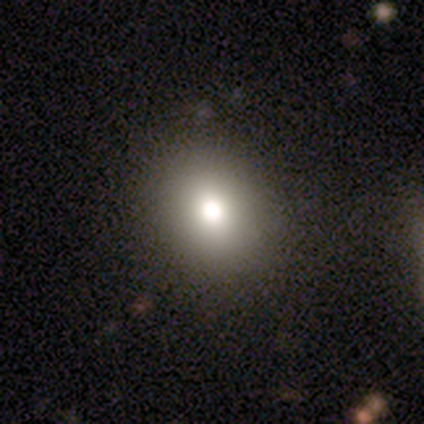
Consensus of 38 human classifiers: Volunteers were most divided on "how rounded": round: 80%, in between: 20%, cigar-shaped: 0%. More confident: merging — none (88%); smooth or featured — smooth (79%).